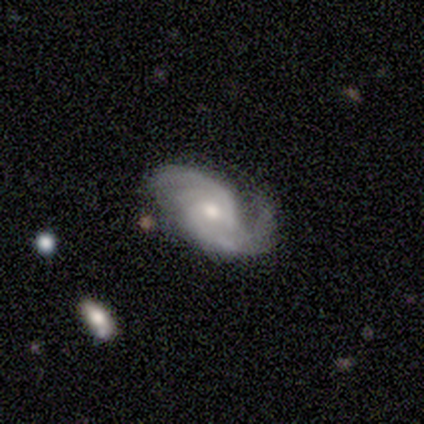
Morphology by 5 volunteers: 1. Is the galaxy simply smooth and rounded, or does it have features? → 80% featured or disk, 20% smooth, 0% star or artifact.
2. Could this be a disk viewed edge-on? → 100% no, 0% yes.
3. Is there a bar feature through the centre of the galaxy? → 50% weak (tied), 50% no (tied), 0% strong.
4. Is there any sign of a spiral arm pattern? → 100% yes, 0% no.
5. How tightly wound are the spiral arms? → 50% tight (tied), 50% medium (tied), 0% loose.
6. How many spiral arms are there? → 100% 2, 0% 1, 0% 3, 0% 4, 0% more than 4, 0% can't tell.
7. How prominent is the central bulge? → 75% moderate, 25% small, 0% dominant, 0% large, 0% none.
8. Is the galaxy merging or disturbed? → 80% none, 20% minor disturbance, 0% major disturbance, 0% merger.